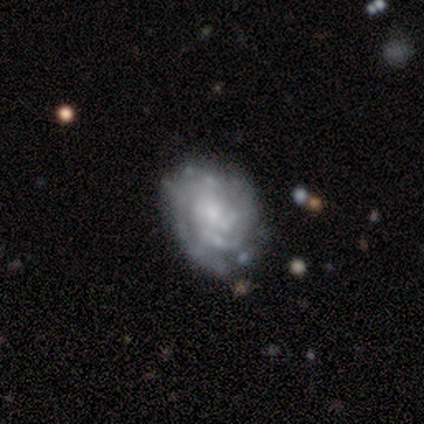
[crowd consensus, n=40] This is clearly a featured or disk galaxy (88%). It is clearly not viewed edge-on (97%). Bar: likely no (68%). Spiral arm pattern: clearly yes (82%). Spiral arm count: marginally 2 (32%, tied with 3). Spiral winding: likely tight (68%). Central bulge: possibly small (47%). Merging: likely none (67%).